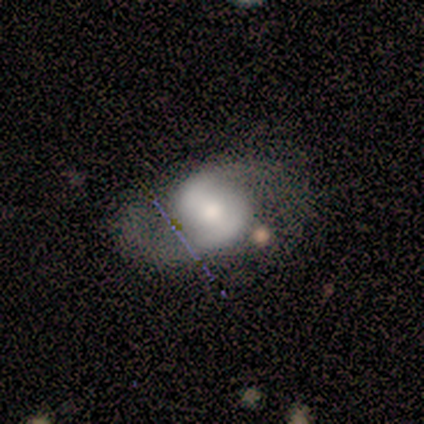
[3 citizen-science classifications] This is likely a featured or disk galaxy (67%). It is clearly not viewed edge-on (100%). Bar: possibly strong (50%, tied with weak). Spiral arm pattern: clearly yes (100%). Spiral arm count: clearly 2 (100%). Spiral winding: possibly medium (50%, tied with loose). Central bulge: possibly large (50%, tied with small). Merging: marginally none (33%, tied with minor disturbance and major disturbance).